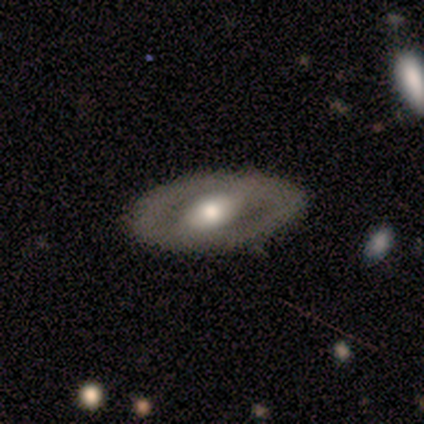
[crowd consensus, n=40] Q: Smooth or featured?
A: featured or disk (65%); runner-up: smooth (32%)
Q: Edge-on disk?
A: no (92%); runner-up: yes (8%)
Q: Bar?
A: strong (54%); runner-up: weak (33%)
Q: Spiral arms?
A: no (71%); runner-up: yes (29%)
Q: Bulge size?
A: moderate (71%); runner-up: large (17%)
Q: Merging?
A: none (95%); runner-up: minor disturbance (5%)